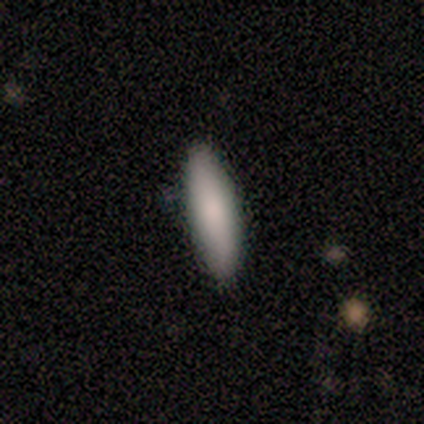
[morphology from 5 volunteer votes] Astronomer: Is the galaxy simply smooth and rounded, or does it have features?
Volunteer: smooth — 100%.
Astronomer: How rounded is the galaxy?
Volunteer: cigar-shaped — 60% (runner-up: in between, 40%).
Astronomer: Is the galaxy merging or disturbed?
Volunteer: none — 100%.